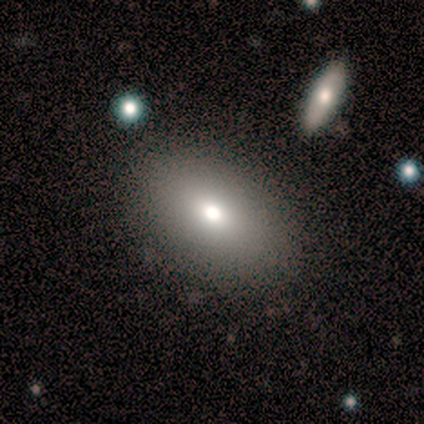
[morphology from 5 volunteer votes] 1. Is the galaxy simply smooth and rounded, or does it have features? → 60% smooth, 40% featured or disk, 0% star or artifact.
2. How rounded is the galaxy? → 100% in between, 0% round, 0% cigar-shaped.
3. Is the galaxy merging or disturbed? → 80% none, 20% merger, 0% minor disturbance, 0% major disturbance.